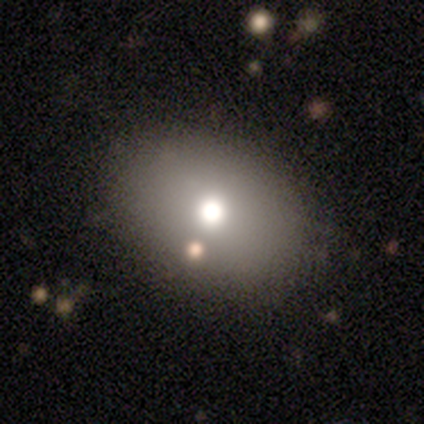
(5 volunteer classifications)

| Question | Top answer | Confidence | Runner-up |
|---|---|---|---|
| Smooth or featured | smooth | 80% | star or artifact (20%) |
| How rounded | in between | 100% | — |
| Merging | none | 100% | — |